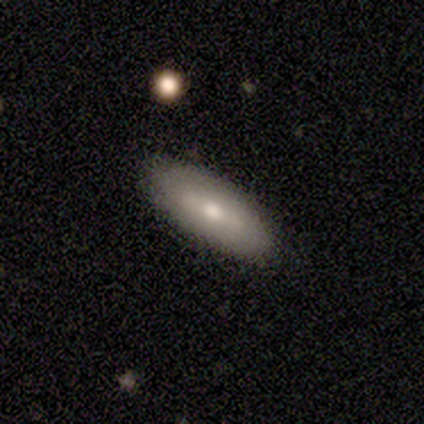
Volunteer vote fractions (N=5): smooth 60%, featured or disk 40%, star or artifact 0%. Down the decision tree: how rounded — in between (67%); merging — none (80%).